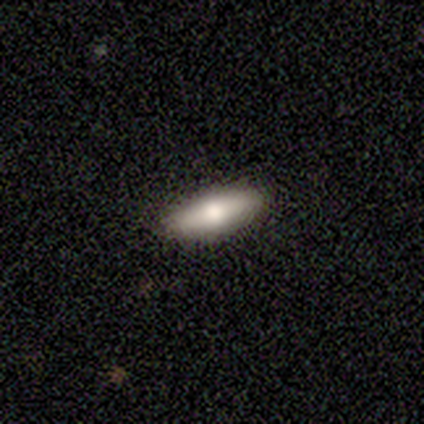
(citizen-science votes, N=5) Smooth or featured?
  - smooth: 80% *
  - featured or disk: 20%
  - star or artifact: 0%
How rounded?
  - in between: 75% *
  - cigar-shaped: 25%
  - round: 0%
Merging?
  - none: 80% *
  - minor disturbance: 20%
  - major disturbance: 0%
  - merger: 0%